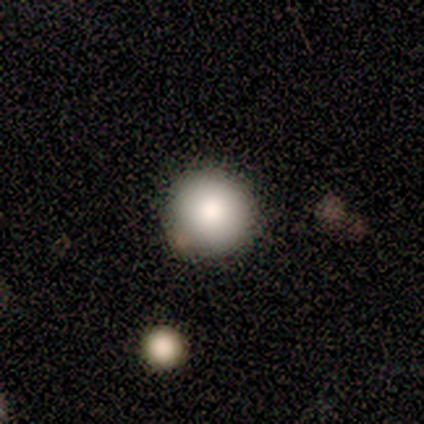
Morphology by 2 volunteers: type=smooth (100%); roundness=round (100%); merging=none (100%).